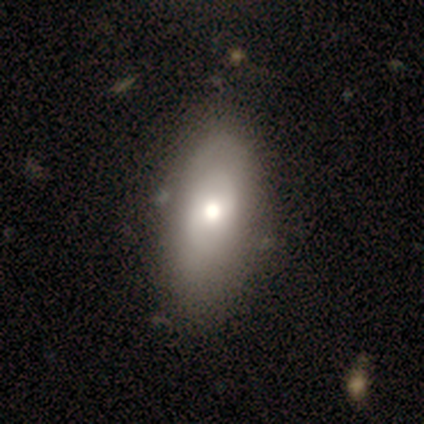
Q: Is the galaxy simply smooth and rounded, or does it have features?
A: smooth — 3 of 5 (60%).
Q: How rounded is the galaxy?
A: in between — 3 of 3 (100%).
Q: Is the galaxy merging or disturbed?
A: none — 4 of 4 (100%).